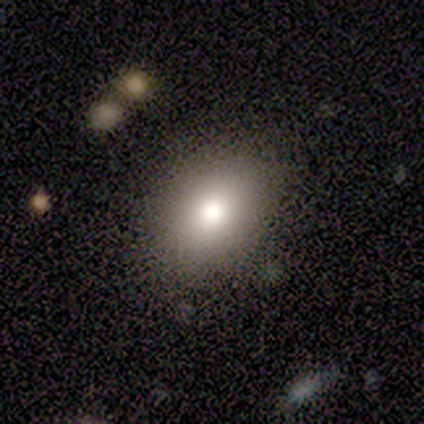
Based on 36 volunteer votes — Morphology: type=smooth (72%); roundness=in between (65%); merging=none (81%).